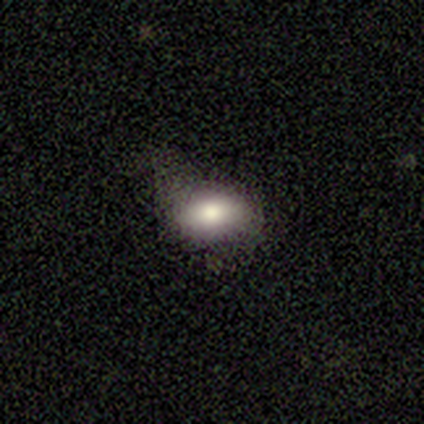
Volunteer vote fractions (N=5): smooth_or_featured: smooth (p=1.00)
how_rounded: in between (p=1.00)
merging: none (p=0.80) [alt: minor disturbance p=0.20]